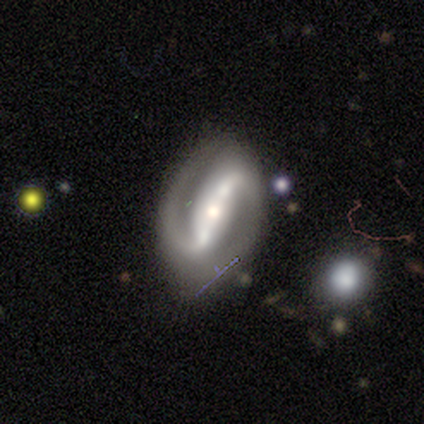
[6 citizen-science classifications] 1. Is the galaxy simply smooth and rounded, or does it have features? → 100% featured or disk, 0% smooth, 0% star or artifact.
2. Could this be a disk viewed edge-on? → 100% no, 0% yes.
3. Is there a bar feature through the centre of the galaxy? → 67% strong, 33% no, 0% weak.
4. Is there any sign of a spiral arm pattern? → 100% yes, 0% no.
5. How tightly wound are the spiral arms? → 50% medium, 33% loose, 17% tight.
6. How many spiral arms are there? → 100% 2, 0% 1, 0% 3, 0% 4, 0% more than 4, 0% can't tell.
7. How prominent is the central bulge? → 50% moderate (tied), 50% small (tied), 0% dominant, 0% large, 0% none.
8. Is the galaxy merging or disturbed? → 83% none, 17% minor disturbance, 0% major disturbance, 0% merger.